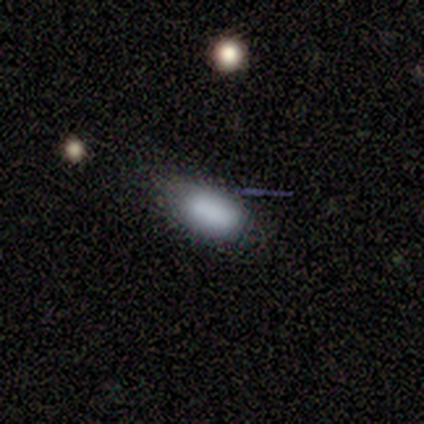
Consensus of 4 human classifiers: A smooth galaxy with no disk features (75%) that is in between round and cigar-shaped (100%). Merging: minor disturbance (67%).